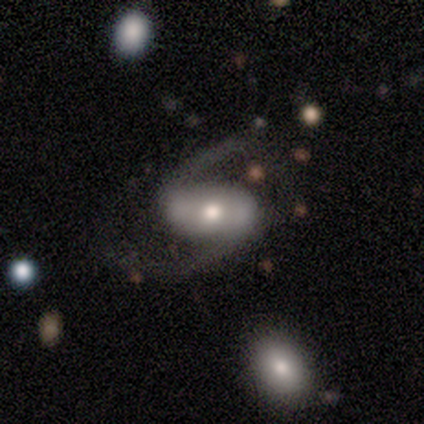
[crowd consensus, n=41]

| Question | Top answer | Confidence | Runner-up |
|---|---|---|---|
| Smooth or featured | featured or disk | 93% | star or artifact (5%) |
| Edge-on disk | no | 100% | — |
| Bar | no | 45% | strong (37%) |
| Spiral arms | yes | 97% | no (3%) |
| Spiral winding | loose | 65% | medium (35%) |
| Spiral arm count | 2 | 95% | can't tell (5%) |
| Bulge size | moderate | 63% | small (21%) |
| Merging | none | 64% | minor disturbance (21%) |